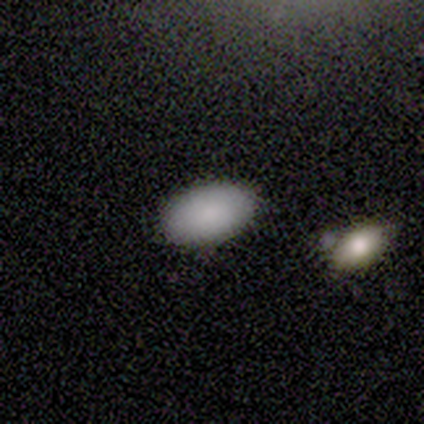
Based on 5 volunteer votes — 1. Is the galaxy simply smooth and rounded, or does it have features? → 80% smooth, 20% featured or disk, 0% star or artifact.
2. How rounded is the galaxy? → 100% in between, 0% round, 0% cigar-shaped.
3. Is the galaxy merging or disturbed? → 100% none, 0% minor disturbance, 0% major disturbance, 0% merger.